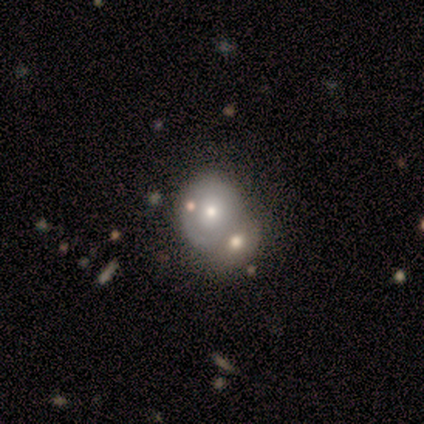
Q: Smooth or featured?
A: smooth (40%); tied with: star or artifact (40%)
Q: How rounded?
A: round (50%); tied with: in between (50%)
Q: Merging?
A: merger (67%); runner-up: none (33%)